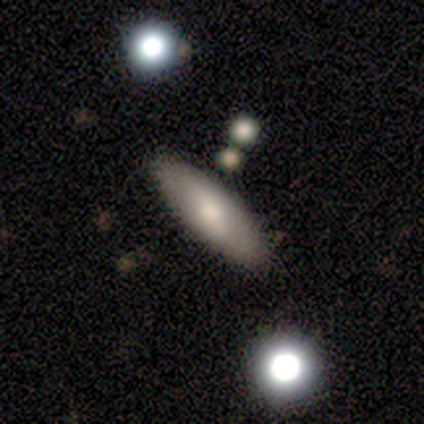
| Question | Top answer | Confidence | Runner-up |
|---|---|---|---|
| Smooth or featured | smooth | 50% | tied: featured or disk (50%) |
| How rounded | in between | 50% | tied: cigar-shaped (50%) |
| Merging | none | 100% | — |